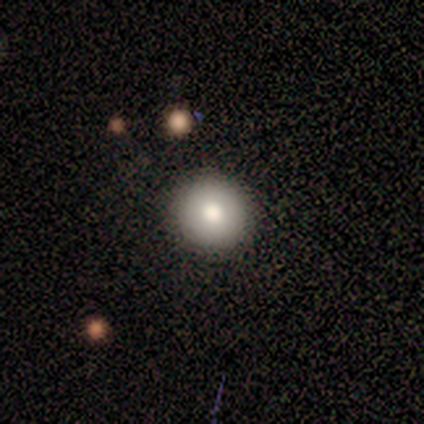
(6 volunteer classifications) Volunteers were most divided on "smooth or featured": smooth: 83%, star or artifact: 17%, featured or disk: 0%. More confident: how rounded — round (100%); merging — none (100%).